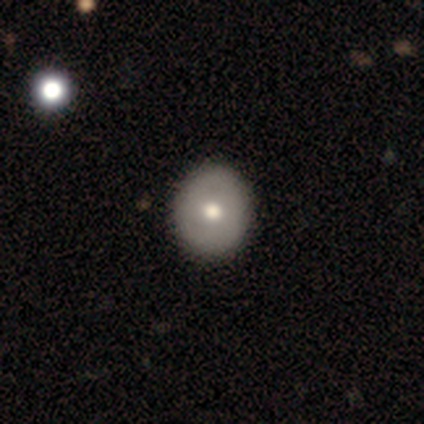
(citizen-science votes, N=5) This is clearly a smooth galaxy (80%). How rounded: likely round (75%). Merging: clearly none (80%).